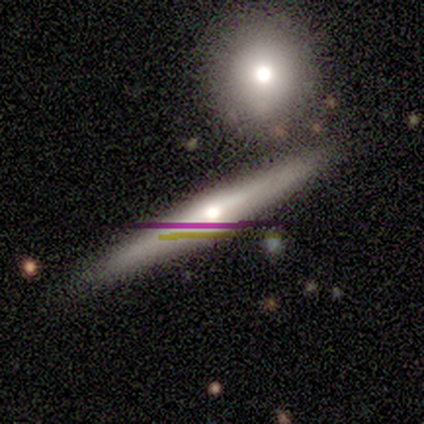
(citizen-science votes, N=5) This is likely a featured or disk galaxy (60%). It is likely viewed edge-on (67%). Edge-on bulge: clearly rounded (100%). Merging: clearly none (80%).